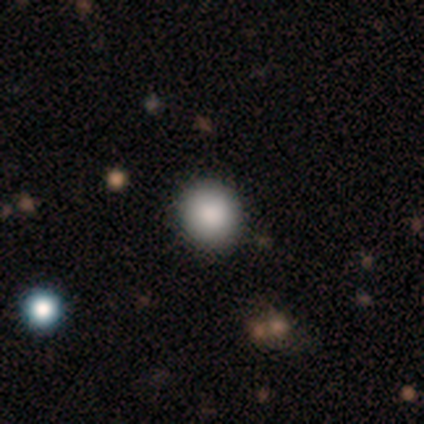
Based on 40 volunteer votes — smooth 85%, star or artifact 12%, featured or disk 2%. Down the decision tree: how rounded — round (97%); merging — none (89%).